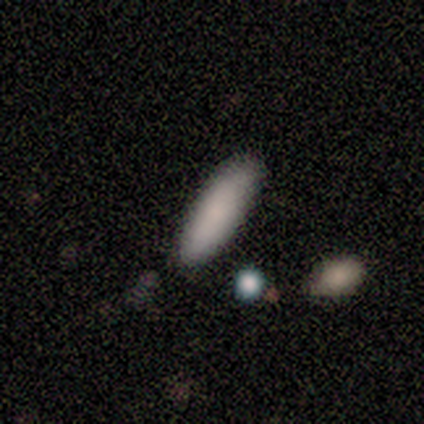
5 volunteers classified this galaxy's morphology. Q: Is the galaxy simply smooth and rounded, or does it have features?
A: smooth — 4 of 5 (80%).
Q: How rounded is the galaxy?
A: in between — 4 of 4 (100%).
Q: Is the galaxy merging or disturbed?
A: none — 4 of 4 (100%).